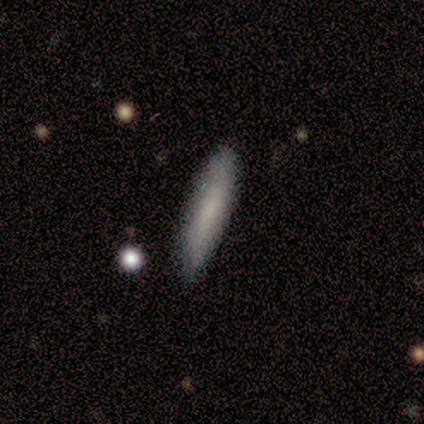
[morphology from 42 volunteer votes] smooth 71%, featured or disk 26%, star or artifact 2%. Down the decision tree: how rounded — cigar-shaped (73%); merging — none (85%).